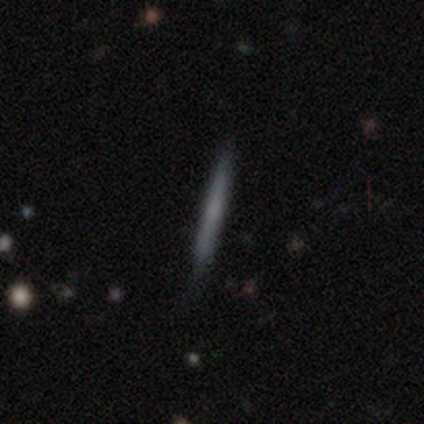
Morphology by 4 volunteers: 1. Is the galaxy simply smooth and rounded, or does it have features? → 75% smooth, 25% featured or disk, 0% star or artifact.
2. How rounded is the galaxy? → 100% cigar-shaped, 0% round, 0% in between.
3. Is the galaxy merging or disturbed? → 75% none, 25% minor disturbance, 0% major disturbance, 0% merger.